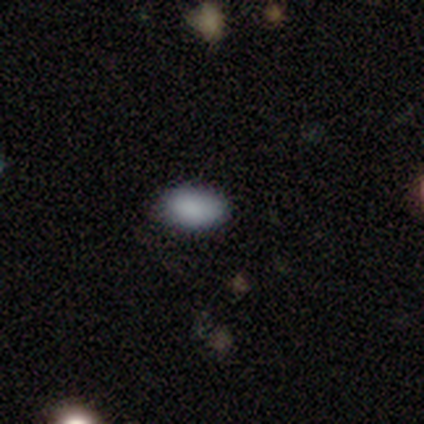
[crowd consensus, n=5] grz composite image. It shows a smooth galaxy with no disk features (100%) that is in between round and cigar-shaped (100%). Merging: none (80%).